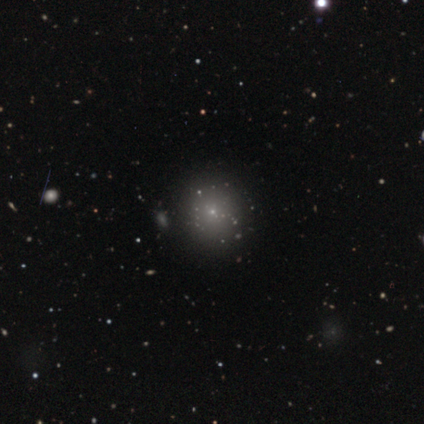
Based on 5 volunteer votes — Smooth or featured? smooth (60%)
How rounded? round (100%)
Merging? none (100%)